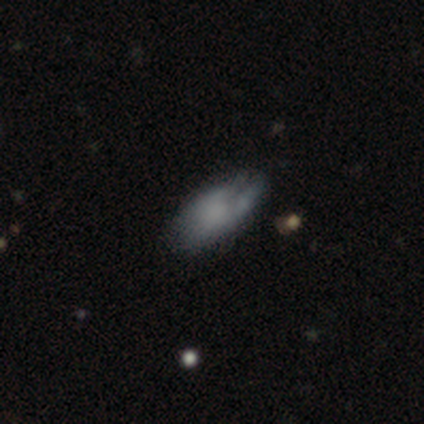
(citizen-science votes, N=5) This appears to be a smooth galaxy with no disk features (80%) that is in between round and cigar-shaped (100%). Merging: minor disturbance (80%).